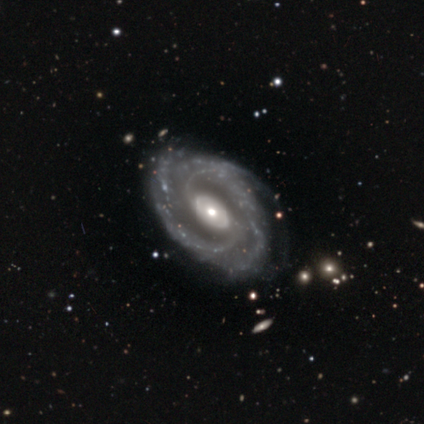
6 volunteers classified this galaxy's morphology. Volunteers were most divided on "spiral arm count" (2-way tie): 2: 33%, 4: 33%, 1: 17%, can't tell: 17%, 3: 0%, more than 4: 0%. More confident: smooth or featured — featured or disk (100%); edge-on disk — no (100%); spiral arms — yes (100%); bar — no (67%); bulge size — small (67%); merging — none (67%); spiral winding — tight (50%).